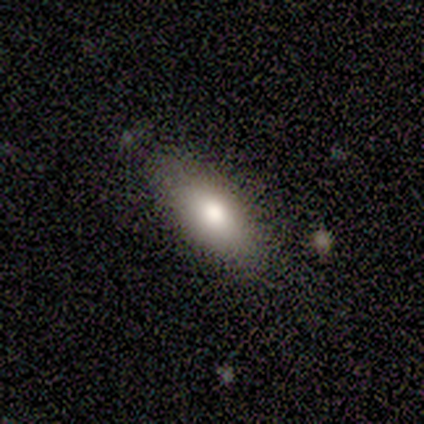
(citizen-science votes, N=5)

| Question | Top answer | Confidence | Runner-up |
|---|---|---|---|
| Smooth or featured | smooth | 80% | featured or disk (20%) |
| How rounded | in between | 50% | tied: cigar-shaped (50%) |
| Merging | none | 100% | — |